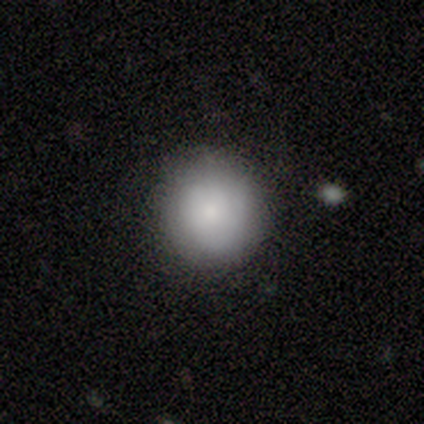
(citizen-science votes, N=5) smooth_or_featured: smooth (p=0.80) [alt: featured or disk p=0.20]
how_rounded: round (p=1.00)
merging: none (p=0.80) [alt: minor disturbance p=0.20]